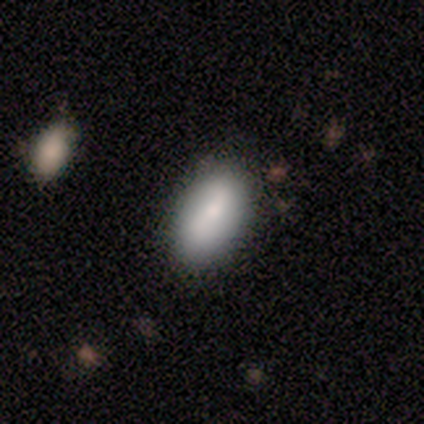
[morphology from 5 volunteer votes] A smooth galaxy with no disk features (100%) that is in between round and cigar-shaped (100%).

Vote fractions:
- Smooth or featured? smooth: 100% / featured or disk: 0% / star or artifact: 0%
- How rounded? in between: 100% / round: 0% / cigar-shaped: 0%
- Merging? none: 100% / minor disturbance: 0% / major disturbance: 0% / merger: 0%